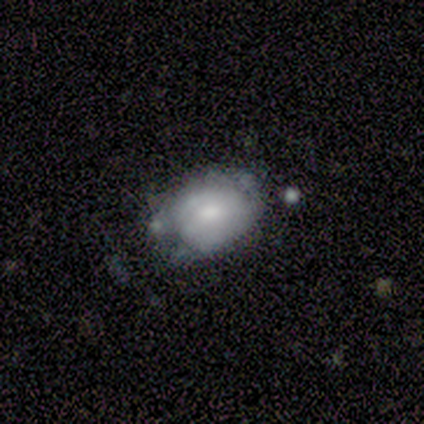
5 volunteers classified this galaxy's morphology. Volunteers were most divided on "smooth or featured": featured or disk: 60%, smooth: 40%, star or artifact: 0%. More confident: edge-on disk — no (100%); bar — no (100%); spiral arms — no (67%); bulge size — moderate (67%); merging — none (60%).